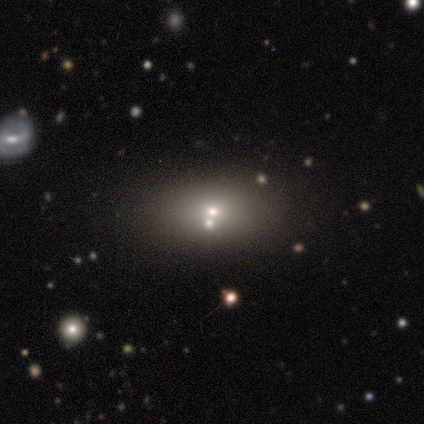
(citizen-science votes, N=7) A featured or disk galaxy (43%) with no bar (100%), no spiral arms (100%) and a moderate central bulge (67%). Merging: none (80%).